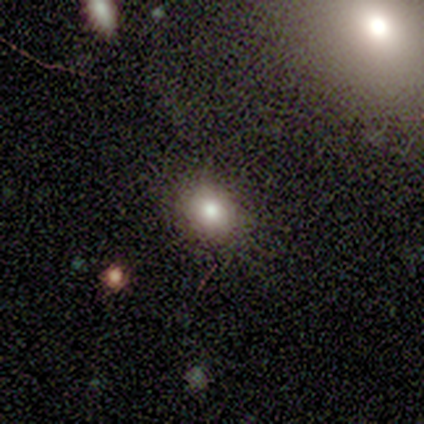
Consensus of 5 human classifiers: Smooth or featured: smooth — 60% (star or artifact — 40%)
How rounded: round — 67% (in between — 33%)
Merging: none — 100%